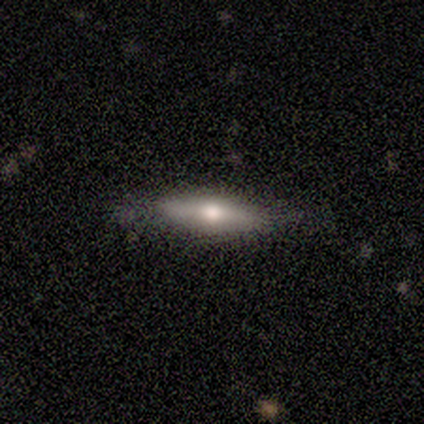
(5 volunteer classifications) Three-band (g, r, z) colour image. It shows a smooth galaxy with no disk features (80%) that is cigar-shaped (75%). Merging: none (100%).